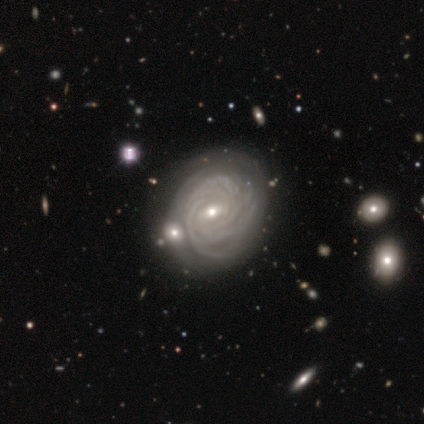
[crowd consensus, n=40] smooth-or-featured: featured or disk: 92% | smooth: 5% | star or artifact: 2%
  disk-edge-on: no: 95% | yes: 5%
    bar: weak: 57% | no: 34% | strong: 9%
    has-spiral-arms: yes: 94% | no: 6%
      spiral-winding: tight: 76% | medium: 15% | loose: 9%
      spiral-arm-count: more than 4: 30% | 4: 27% | can't tell: 27% | 3: 12% | 1: 3% | 2: 0%
    bulge-size: small: 63% | moderate: 31% | none: 6% | dominant: 0% | large: 0%
  merging: none: 64% | minor disturbance: 23% | merger: 10% | major disturbance: 3%